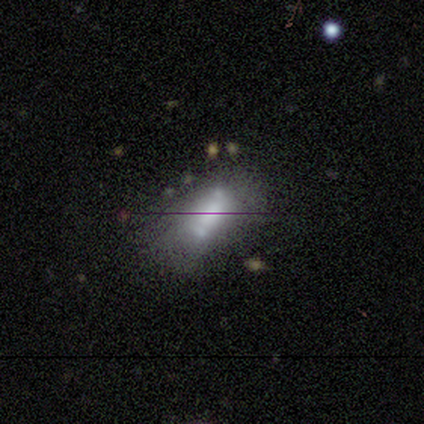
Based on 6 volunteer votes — A featured or disk galaxy (50%) with no bar (67%), no spiral arms (67%) and a dominant central bulge (33%, tied with moderate and none). Merging: none (80%).